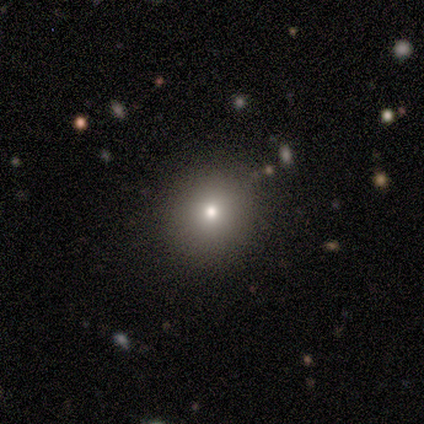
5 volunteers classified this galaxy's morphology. Volunteers were most divided on "smooth or featured": smooth: 80%, star or artifact: 20%, featured or disk: 0%. More confident: how rounded — round (100%); merging — none (100%).